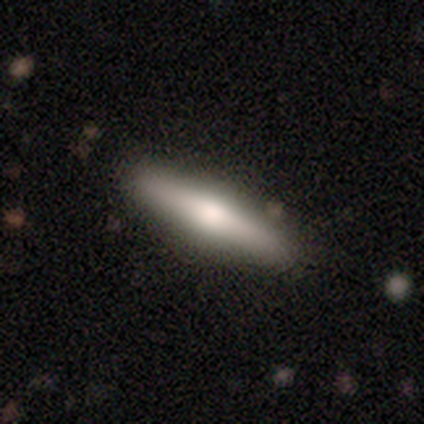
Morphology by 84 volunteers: smooth_or_featured: smooth (p=0.48) [alt: featured or disk p=0.44]
how_rounded: cigar-shaped (p=0.80) [alt: in between p=0.17]
merging: none (p=0.95) [alt: minor disturbance p=0.03]